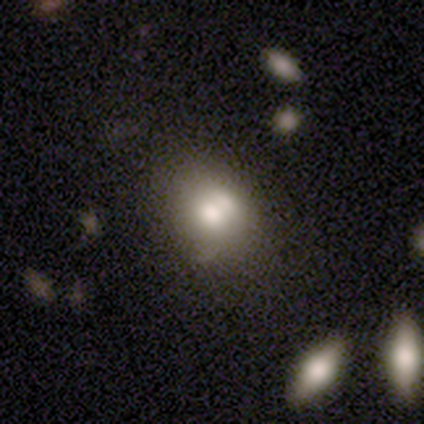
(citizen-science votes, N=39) A smooth galaxy with no disk features (67%) that is in between round and cigar-shaped (54%). Merging: none (51%).